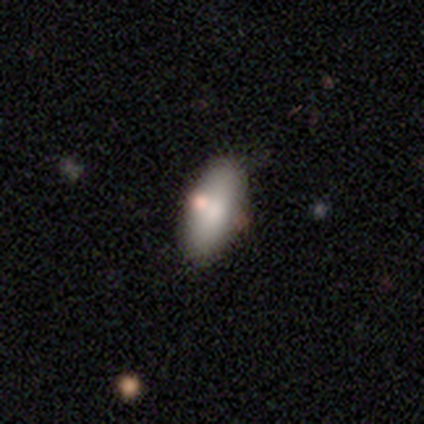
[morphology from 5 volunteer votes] A smooth galaxy with no disk features (100%) that is in between round and cigar-shaped (100%).

Vote fractions:
- Smooth or featured? smooth: 100% / featured or disk: 0% / star or artifact: 0%
- How rounded? in between: 100% / round: 0% / cigar-shaped: 0%
- Merging? none: 100% / minor disturbance: 0% / major disturbance: 0% / merger: 0%